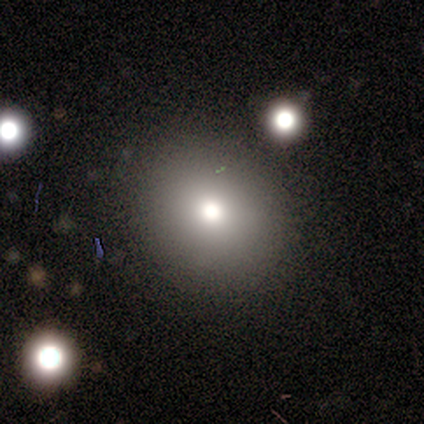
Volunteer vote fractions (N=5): Smooth or featured? smooth (60%)
How rounded? in between (67%)
Merging? none (75%)